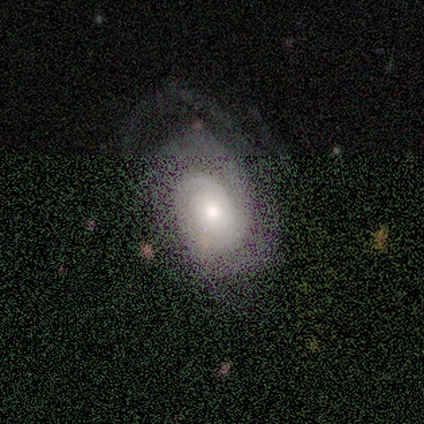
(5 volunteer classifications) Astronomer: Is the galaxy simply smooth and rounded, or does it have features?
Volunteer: featured or disk — 60% (runner-up: star or artifact, 40%).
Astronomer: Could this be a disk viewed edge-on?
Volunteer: no — 100%.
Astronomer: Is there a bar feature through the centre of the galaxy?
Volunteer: no — 100%.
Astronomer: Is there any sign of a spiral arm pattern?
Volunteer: yes — 67%.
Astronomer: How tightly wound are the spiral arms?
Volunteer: tight — 50%, tied with medium at 50%.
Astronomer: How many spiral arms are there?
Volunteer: can't tell — 100%.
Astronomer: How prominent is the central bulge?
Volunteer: large — 33%, tied with moderate and small at 33%.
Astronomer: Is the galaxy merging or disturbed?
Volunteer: none — 33%, tied with minor disturbance and major disturbance at 33%.